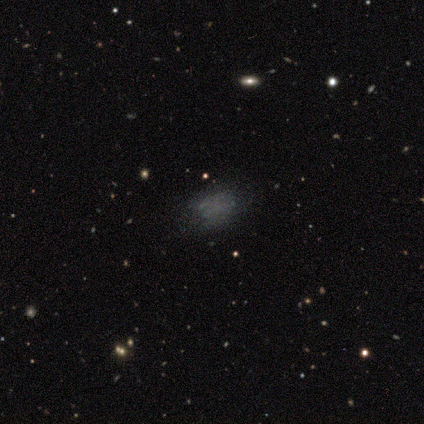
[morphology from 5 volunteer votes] Smooth or featured? 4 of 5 (80%) said smooth. How rounded? 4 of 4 (100%) said in between. Merging? 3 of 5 (60%) said minor disturbance.